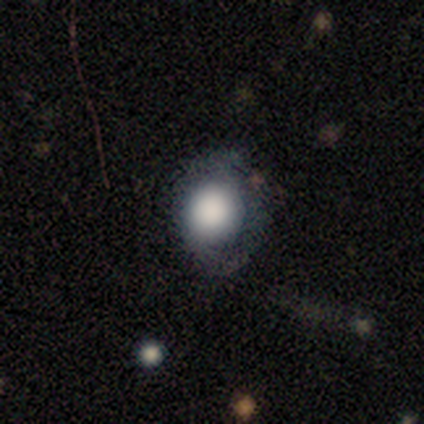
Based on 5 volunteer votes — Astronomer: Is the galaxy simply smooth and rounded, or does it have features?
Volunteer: featured or disk — 60% (runner-up: smooth, 40%).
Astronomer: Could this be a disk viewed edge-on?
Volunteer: no — 100%.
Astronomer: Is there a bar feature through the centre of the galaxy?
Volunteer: no — 100%.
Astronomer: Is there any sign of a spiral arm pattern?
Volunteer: no — 100%.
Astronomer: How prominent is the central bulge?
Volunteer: dominant — 33%, tied with large and none at 33%.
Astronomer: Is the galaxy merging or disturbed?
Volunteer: none — 40% (runner-up: minor disturbance, 20%).